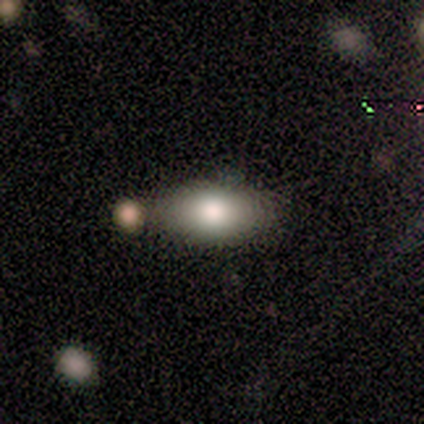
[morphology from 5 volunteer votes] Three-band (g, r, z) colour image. It shows a smooth galaxy with no disk features (60%) that is in between round and cigar-shaped (100%). Merging: none (75%).